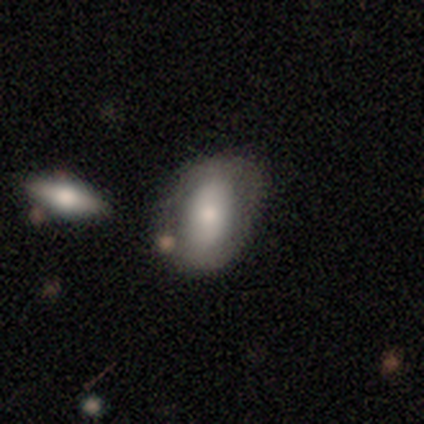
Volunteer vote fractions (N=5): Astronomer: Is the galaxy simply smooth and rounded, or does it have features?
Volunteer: smooth — 60% (runner-up: featured or disk, 40%).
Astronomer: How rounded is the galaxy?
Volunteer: in between — 100%.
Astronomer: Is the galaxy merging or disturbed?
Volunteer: none — 60%.